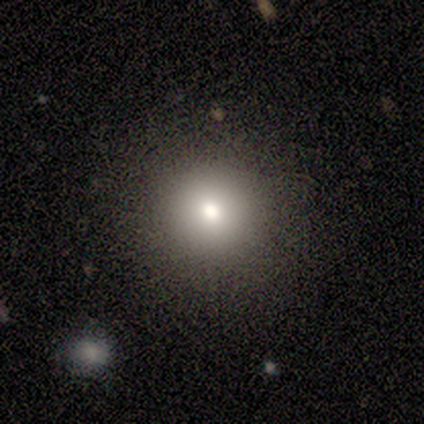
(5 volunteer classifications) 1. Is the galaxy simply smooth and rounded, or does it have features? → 80% smooth, 20% featured or disk, 0% star or artifact.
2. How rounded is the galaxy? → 100% round, 0% in between, 0% cigar-shaped.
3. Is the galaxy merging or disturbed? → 100% none, 0% minor disturbance, 0% major disturbance, 0% merger.